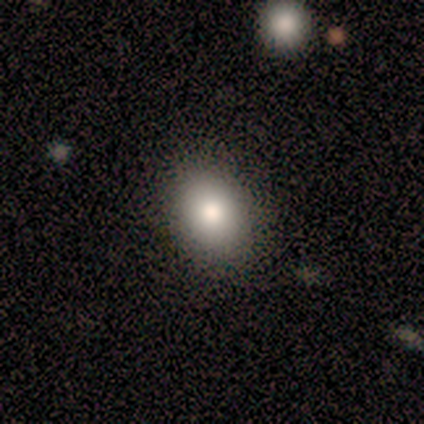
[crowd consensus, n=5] A smooth galaxy with no disk features (80%) that is in between round and cigar-shaped (75%). Merging: none (100%).